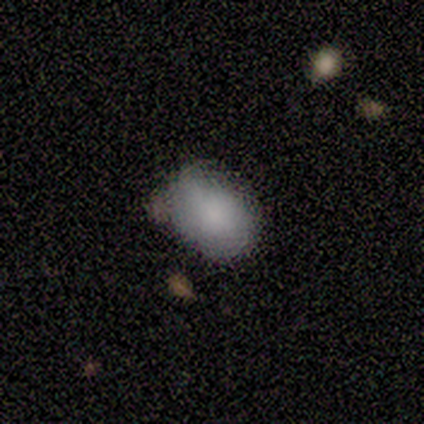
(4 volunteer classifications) smooth-or-featured: smooth: 100% | featured or disk: 0% | star or artifact: 0%
  how-rounded: in between: 100% | round: 0% | cigar-shaped: 0%
  merging: none: 100% | minor disturbance: 0% | major disturbance: 0% | merger: 0%